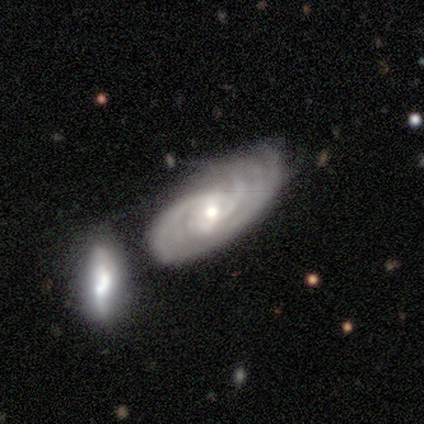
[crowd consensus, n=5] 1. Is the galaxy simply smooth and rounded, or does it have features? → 80% featured or disk, 20% smooth, 0% star or artifact.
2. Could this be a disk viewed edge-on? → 75% no, 25% yes.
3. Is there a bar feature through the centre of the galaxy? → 67% no, 33% weak, 0% strong.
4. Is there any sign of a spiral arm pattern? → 100% yes, 0% no.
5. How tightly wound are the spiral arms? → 67% medium, 33% tight, 0% loose.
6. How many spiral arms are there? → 67% 3, 33% can't tell, 0% 1, 0% 2, 0% 4, 0% more than 4.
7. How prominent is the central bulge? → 100% small, 0% dominant, 0% large, 0% moderate, 0% none.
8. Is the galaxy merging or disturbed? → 80% minor disturbance, 20% merger, 0% none, 0% major disturbance.